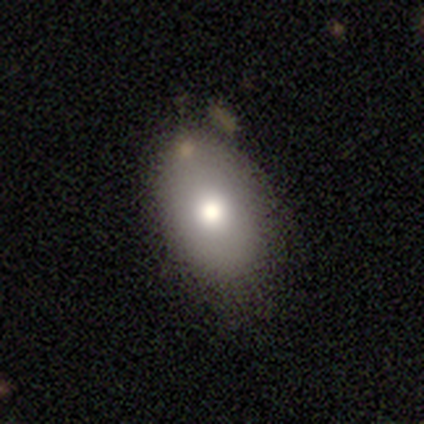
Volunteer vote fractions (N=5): Smooth or featured: smooth — 80% (featured or disk — 20%)
How rounded: in between — 75% (round — 25%)
Merging: none — 100%